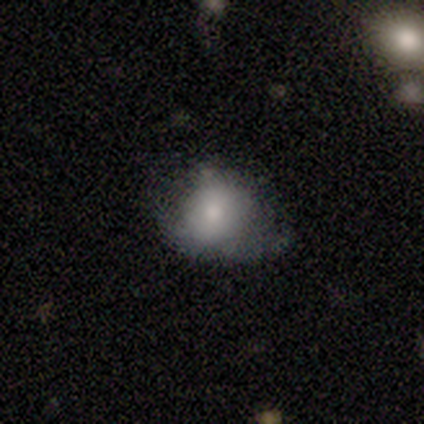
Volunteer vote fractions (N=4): Smooth or featured: smooth — 75% (featured or disk — 25%)
How rounded: round — 67% (in between — 33%)
Merging: major disturbance — 75% (minor disturbance — 25%)